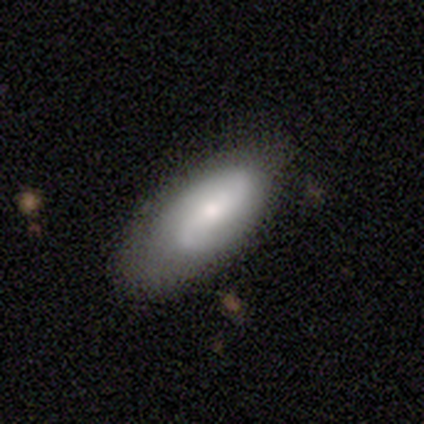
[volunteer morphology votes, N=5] Q: Smooth or featured?
A: featured or disk (80%); runner-up: smooth (20%)
Q: Edge-on disk?
A: no (100%)
Q: Bar?
A: no (75%); runner-up: weak (25%)
Q: Spiral arms?
A: yes (100%)
Q: Spiral winding?
A: medium (50%); runner-up: tight (25%)
Q: Spiral arm count?
A: 2 (75%); runner-up: 1 (25%)
Q: Bulge size?
A: dominant (25%); tied with: moderate (25%); small (25%); none (25%)
Q: Merging?
A: none (60%); runner-up: minor disturbance (40%)